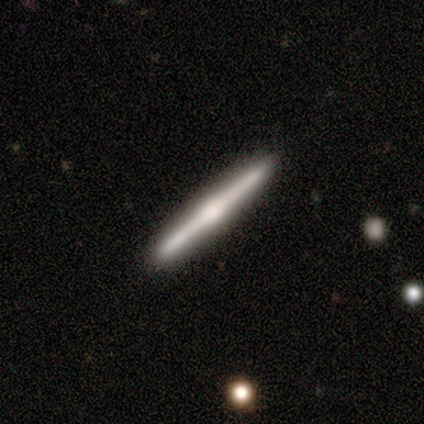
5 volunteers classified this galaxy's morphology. Smooth or featured: featured or disk — 60% (smooth — 20%)
Edge-on disk: yes — 100%
Edge-on bulge: rounded — 100%
Merging: none — 100%